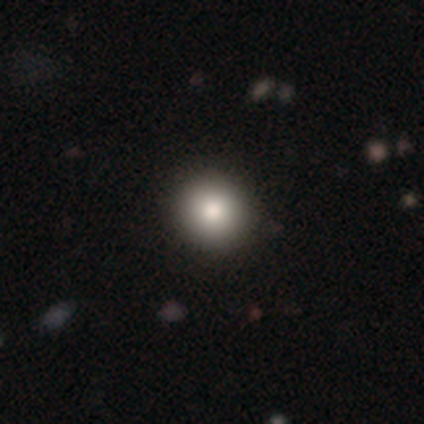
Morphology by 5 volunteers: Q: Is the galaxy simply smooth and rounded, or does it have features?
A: smooth — 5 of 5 (100%).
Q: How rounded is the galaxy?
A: round — 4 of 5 (80%).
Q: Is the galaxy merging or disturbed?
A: none — 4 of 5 (80%).